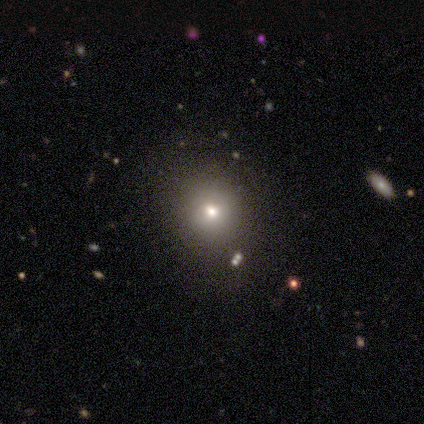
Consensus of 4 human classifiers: Smooth or featured? 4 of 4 (100%) said smooth. How rounded? 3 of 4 (75%) said round. Merging? 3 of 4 (75%) said none.